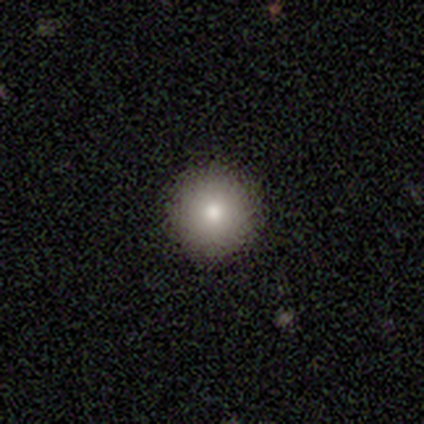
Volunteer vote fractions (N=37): smooth-or-featured: smooth: 86% | featured or disk: 8% | star or artifact: 5%
  how-rounded: round: 94% | in between: 6% | cigar-shaped: 0%
  merging: none: 97% | minor disturbance: 3% | major disturbance: 0% | merger: 0%